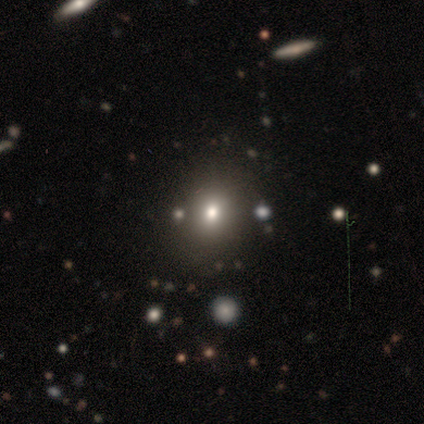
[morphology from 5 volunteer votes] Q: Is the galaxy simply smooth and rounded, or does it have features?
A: star or artifact — 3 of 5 (60%).